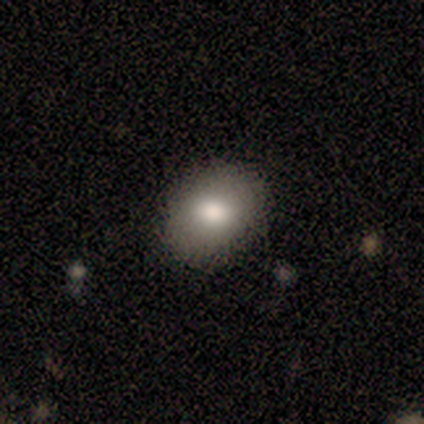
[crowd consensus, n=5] A smooth galaxy with no disk features (80%) that is round (50%, tied with in between).

Vote fractions:
- Smooth or featured? smooth: 80% / featured or disk: 20% / star or artifact: 0%
- How rounded? round: 50% (tied) / in between: 50% (tied) / cigar-shaped: 0%
- Merging? none: 100% / minor disturbance: 0% / major disturbance: 0% / merger: 0%